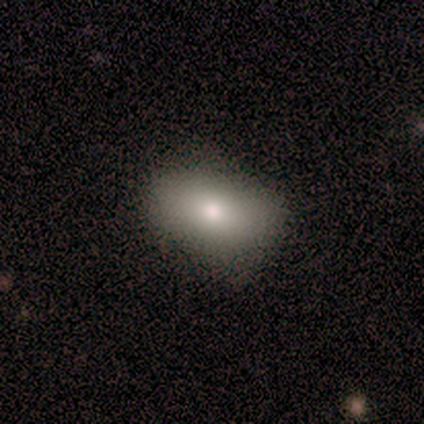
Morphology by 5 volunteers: A smooth galaxy with no disk features (100%) that is in between round and cigar-shaped (80%). Merging: none (40%, tied with minor disturbance).